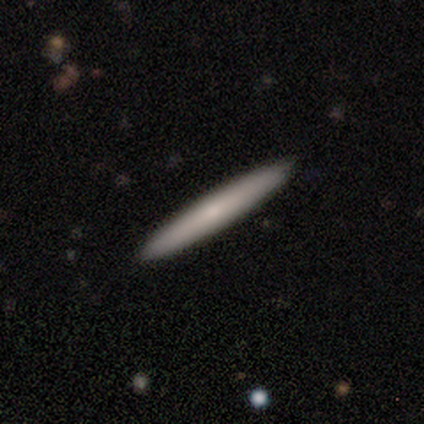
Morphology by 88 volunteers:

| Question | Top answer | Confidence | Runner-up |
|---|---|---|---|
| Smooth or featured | smooth | 64% | featured or disk (30%) |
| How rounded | cigar-shaped | 100% | — |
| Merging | none | 91% | minor disturbance (9%) |